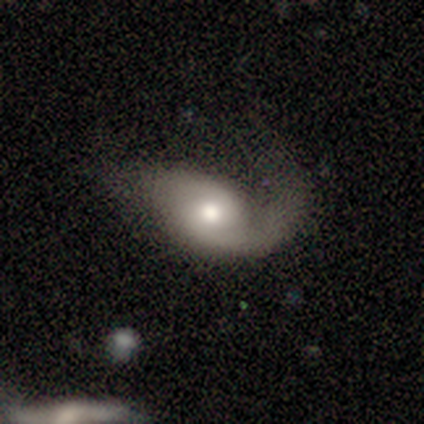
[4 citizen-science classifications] This appears to be a featured or disk galaxy (75%) with no bar (67%), 2 (100%) medium (50%, tied with loose) spiral arms (67%) and a large central bulge (33%, tied with moderate and small). Merging: major disturbance (100%).